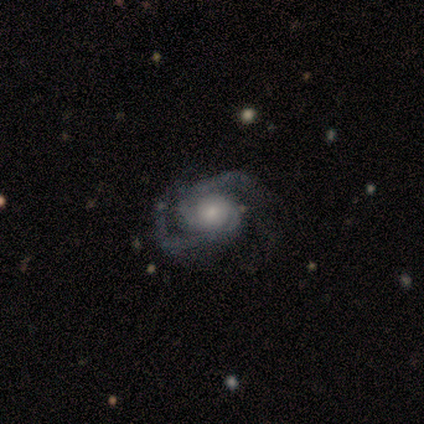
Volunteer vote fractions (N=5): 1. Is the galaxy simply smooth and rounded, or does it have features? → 100% featured or disk, 0% smooth, 0% star or artifact.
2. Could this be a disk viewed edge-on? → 100% no, 0% yes.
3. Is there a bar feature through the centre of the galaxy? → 60% no, 40% weak, 0% strong.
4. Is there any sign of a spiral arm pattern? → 100% yes, 0% no.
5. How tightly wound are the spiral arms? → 80% medium, 20% tight, 0% loose.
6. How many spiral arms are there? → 80% 2, 20% can't tell, 0% 1, 0% 3, 0% 4, 0% more than 4.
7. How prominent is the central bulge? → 80% moderate, 20% small, 0% dominant, 0% large, 0% none.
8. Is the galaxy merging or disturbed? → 80% none, 20% major disturbance, 0% minor disturbance, 0% merger.